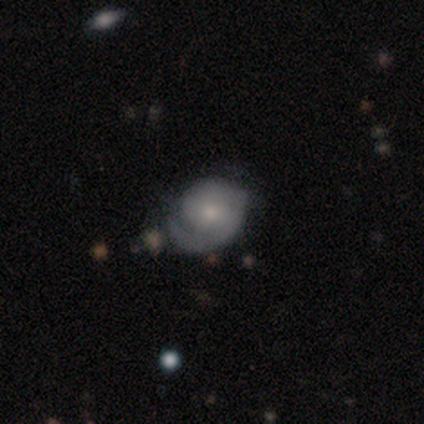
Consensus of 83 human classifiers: Volunteers were most divided on "merging": none: 48%, minor disturbance: 39%, major disturbance: 8%, merger: 5%. Remaining: edge-on disk — no (98%); spiral arms — yes (97%); smooth or featured — featured or disk (72%); bar — no (63%); bulge size — small (63%); spiral winding — tight (54%); spiral arm count — 1 (49%).